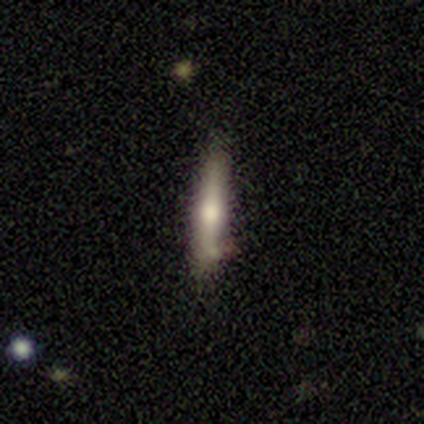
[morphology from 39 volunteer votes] Smooth or featured?
  - featured or disk: 56% *
  - smooth: 36%
  - star or artifact: 8%
Edge-on disk?
  - yes: 91% *
  - no: 9%
Edge-on bulge?
  - rounded: 90% *
  - boxy: 10%
  - none: 0%
Merging?
  - none: 72% *
  - minor disturbance: 17%
  - major disturbance: 8%
  - merger: 3%